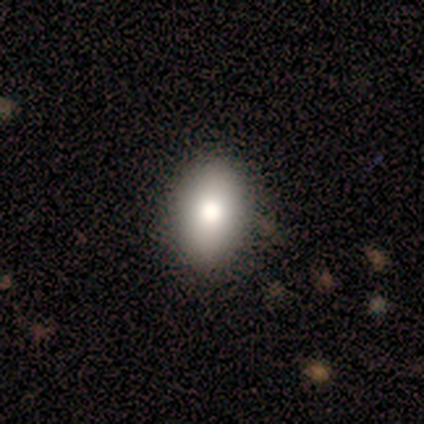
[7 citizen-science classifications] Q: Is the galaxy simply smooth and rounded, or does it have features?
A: smooth — 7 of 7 (100%).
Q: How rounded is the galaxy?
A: in between — 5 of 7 (71%).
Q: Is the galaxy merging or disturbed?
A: none — 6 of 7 (86%).